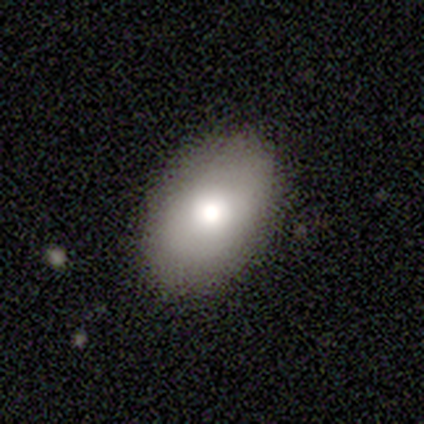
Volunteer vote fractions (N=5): Smooth or featured: smooth — 60% (featured or disk — 40%)
How rounded: in between — 67% (round — 33%)
Merging: none — 80% (minor disturbance — 20%)